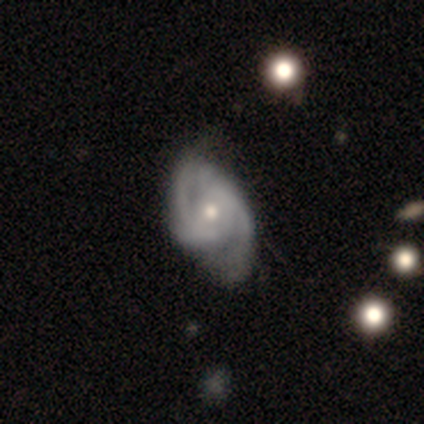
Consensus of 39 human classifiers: Smooth or featured? 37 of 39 (95%) said featured or disk. Edge-on disk? 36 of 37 (97%) said no. Bar? 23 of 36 (64%) said no. Spiral arms? 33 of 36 (92%) said yes. Spiral winding? 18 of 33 (55%) said medium. Spiral arm count? 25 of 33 (76%) said 2. Bulge size? 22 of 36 (61%) said moderate. Merging? 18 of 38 (47%) said none.